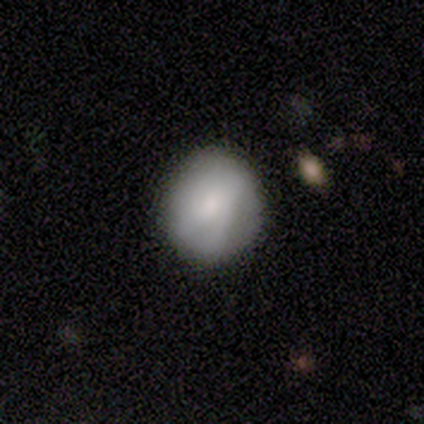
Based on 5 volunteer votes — Smooth or featured? smooth (80%)
How rounded? round (50%, tied with in between)
Merging? none (80%)